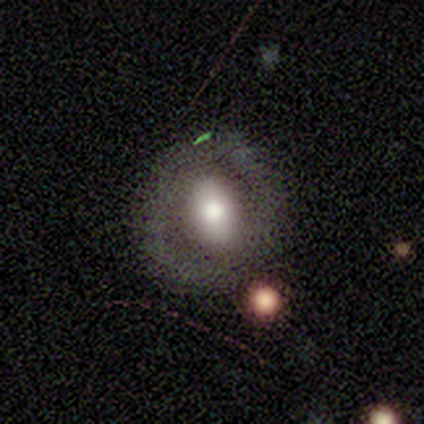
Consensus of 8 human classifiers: Smooth or featured? 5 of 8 (62%) said featured or disk. Edge-on disk? 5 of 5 (100%) said no. Bar? 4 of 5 (80%) said no. Spiral arms? 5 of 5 (100%) said no. Bulge size? 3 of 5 (60%) said moderate. Merging? 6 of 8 (75%) said none.